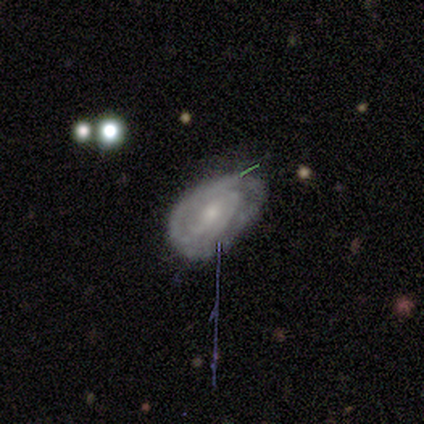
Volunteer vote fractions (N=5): This is clearly a featured or disk galaxy (100%). It is clearly not viewed edge-on (100%). Bar: likely no (60%). Spiral arm pattern: clearly yes (80%). Spiral arm count: possibly 3 (50%). Spiral winding: clearly tight (100%). Central bulge: likely small (60%). Merging: marginally none (40%, tied with minor disturbance).